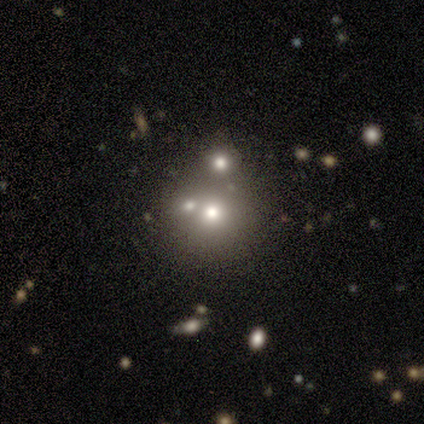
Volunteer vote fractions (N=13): A star or artifact, not a galaxy (38%).